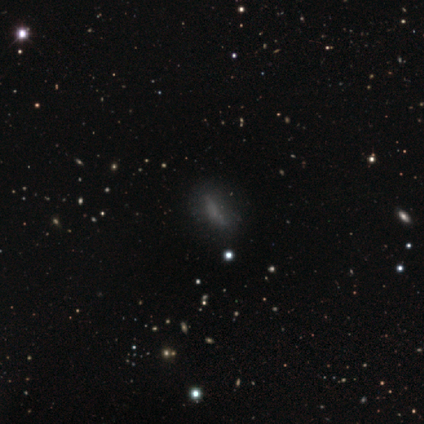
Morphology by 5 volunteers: Volunteers were most divided on "smooth or featured": star or artifact: 60%, smooth: 20%, featured or disk: 20%.